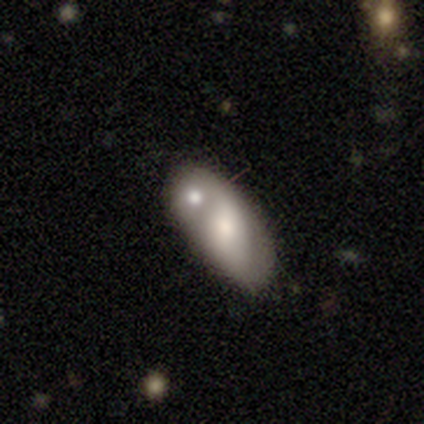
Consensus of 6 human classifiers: featured or disk 67%, smooth 33%, star or artifact 0%. Down the decision tree: edge-on disk — no (100%); bar — no (75%); spiral arms — yes (50%, tied with no); spiral arm count — 3 (50%, tied with can't tell); spiral winding — medium (50%, tied with loose); bulge size — moderate (50%); merging — minor disturbance (50%, tied with merger).